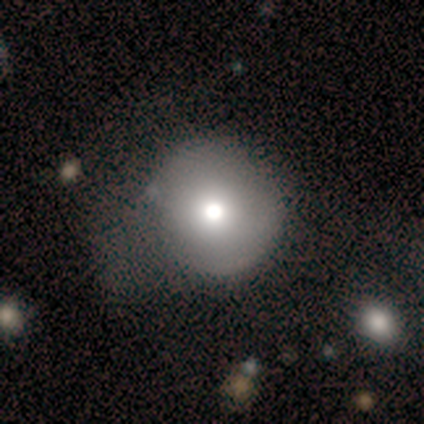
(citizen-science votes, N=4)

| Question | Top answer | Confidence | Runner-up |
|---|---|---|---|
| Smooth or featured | smooth | 75% | featured or disk (25%) |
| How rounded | round | 67% | in between (33%) |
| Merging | none | 50% | tied: major disturbance (50%) |